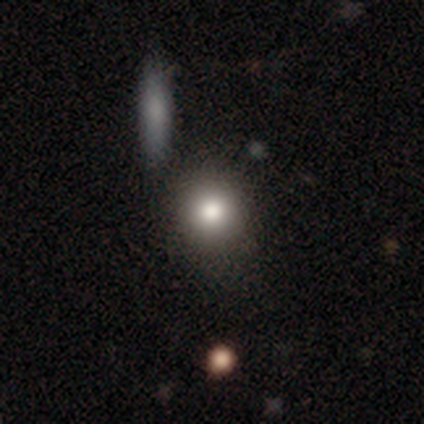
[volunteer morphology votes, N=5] This appears to be a smooth galaxy with no disk features (60%) that is round (100%). Merging: none (100%).